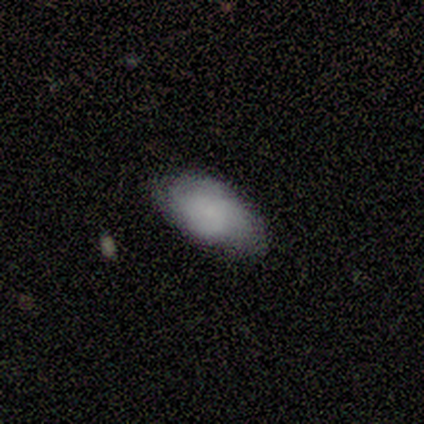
A smooth galaxy with no disk features (67%) that is in between round and cigar-shaped (100%).

Vote fractions:
- Smooth or featured? smooth: 67% / featured or disk: 22% / star or artifact: 11%
- How rounded? in between: 100% / round: 0% / cigar-shaped: 0%
- Merging? none: 50% (tied) / minor disturbance: 50% (tied) / major disturbance: 0% / merger: 0%